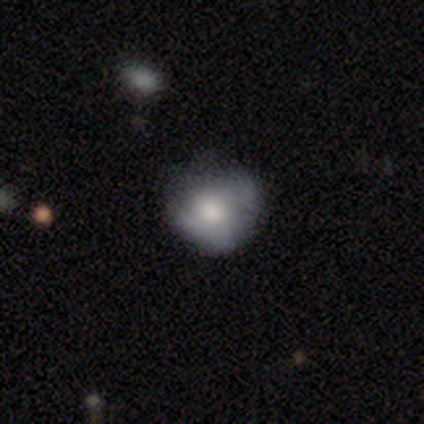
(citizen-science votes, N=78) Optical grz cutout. It shows a smooth galaxy with no disk features (54%) that is round (86%). Merging: none (32%).